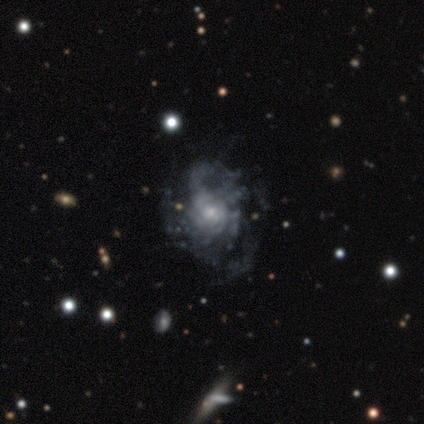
featured or disk 83%, smooth 17%, star or artifact 0%. Down the decision tree: edge-on disk — no (100%); bar — no (100%); spiral arms — yes (60%); spiral arm count — can't tell (67%); spiral winding — tight (33%, tied with medium and loose); bulge size — small (100%); merging — minor disturbance (83%).